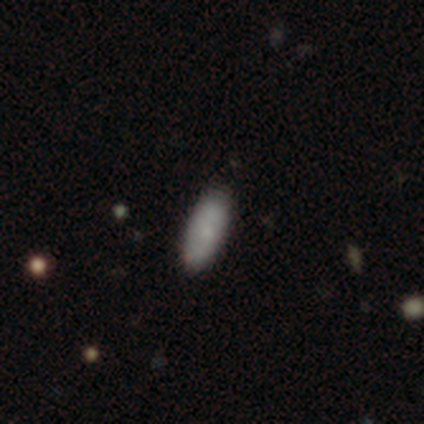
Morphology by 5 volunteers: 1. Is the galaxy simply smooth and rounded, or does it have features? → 80% smooth, 20% featured or disk, 0% star or artifact.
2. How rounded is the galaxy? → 50% in between (tied), 50% cigar-shaped (tied), 0% round.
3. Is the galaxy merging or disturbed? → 100% none, 0% minor disturbance, 0% major disturbance, 0% merger.